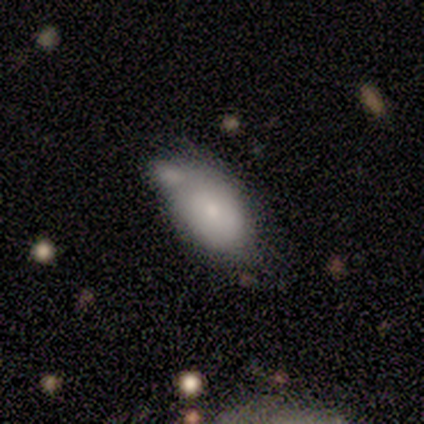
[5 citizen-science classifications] This is clearly a smooth galaxy (80%). How rounded: clearly in between (100%). Merging: marginally merger (40%).